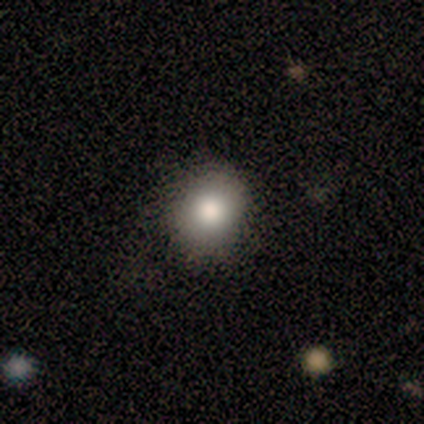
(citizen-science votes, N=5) A smooth galaxy with no disk features (100%) that is round (60%). Merging: none (80%).